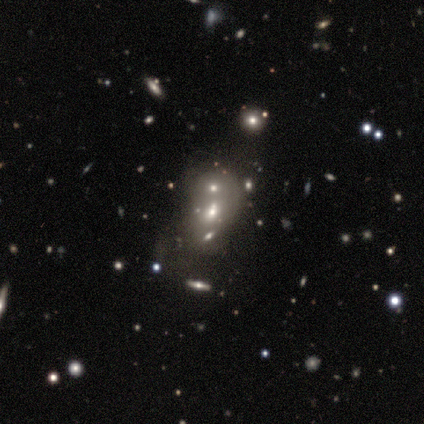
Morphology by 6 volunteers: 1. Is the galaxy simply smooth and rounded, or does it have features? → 67% featured or disk, 33% smooth, 0% star or artifact.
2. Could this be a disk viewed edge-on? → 100% no, 0% yes.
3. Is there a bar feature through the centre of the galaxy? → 100% no, 0% strong, 0% weak.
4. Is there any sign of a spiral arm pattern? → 100% no, 0% yes.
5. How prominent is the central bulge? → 50% moderate, 25% small, 25% none, 0% dominant, 0% large.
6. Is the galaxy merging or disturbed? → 50% merger, 33% none, 17% major disturbance, 0% minor disturbance.